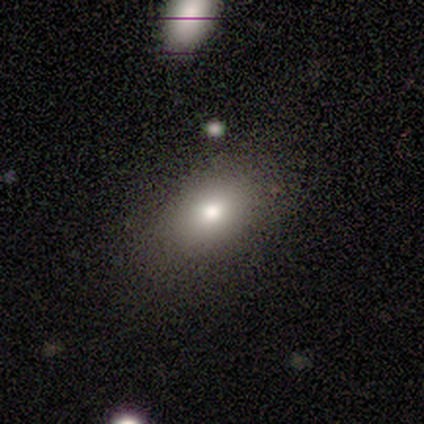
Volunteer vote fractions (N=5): Morphology: type=smooth (80%); roundness=in between (100%); merging=none (60%).